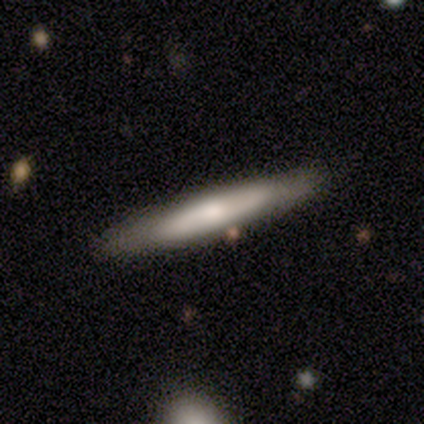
A smooth galaxy with no disk features (52%) that is cigar-shaped (100%). Merging: none (84%).